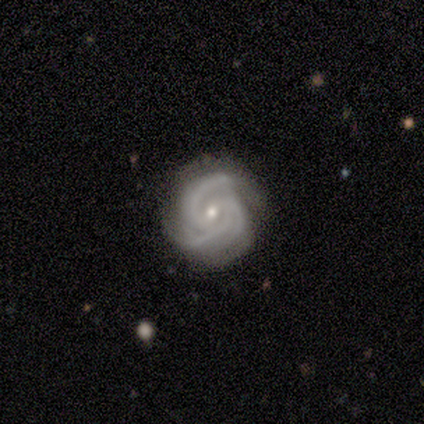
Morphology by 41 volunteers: Smooth or featured: featured or disk — 93% (star or artifact — 7%)
Edge-on disk: no — 97% (yes — 3%)
Bar: no — 59% (weak — 38%)
Spiral arms: yes — 100%
Spiral winding: tight — 57% (medium — 41%)
Spiral arm count: 3 — 73% (2 — 19%)
Bulge size: small — 54% (moderate — 43%)
Merging: none — 74% (minor disturbance — 24%)